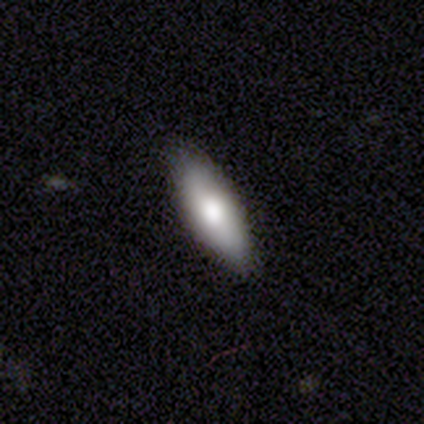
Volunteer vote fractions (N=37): Q: Smooth or featured?
A: smooth (76%); runner-up: featured or disk (19%)
Q: How rounded?
A: in between (57%); runner-up: cigar-shaped (43%)
Q: Merging?
A: none (89%); runner-up: minor disturbance (11%)